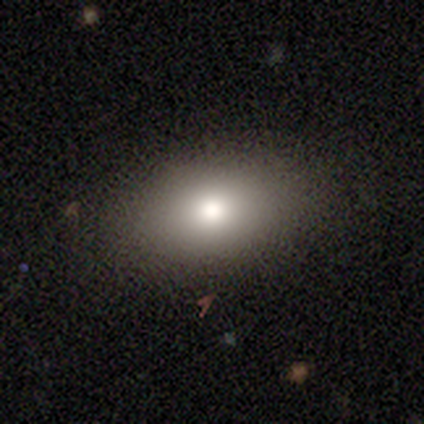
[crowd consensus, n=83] Volunteers were most divided on "smooth or featured": smooth: 75%, featured or disk: 13%, star or artifact: 12%. More confident: merging — none (88%); how rounded — in between (87%).